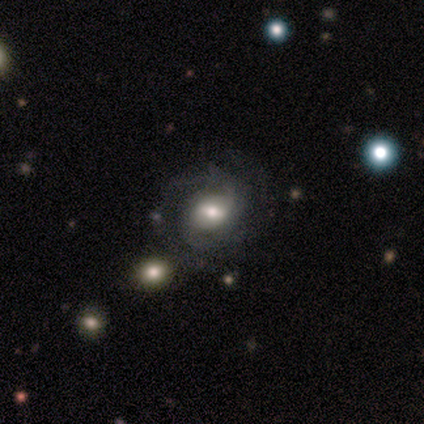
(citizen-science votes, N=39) Smooth or featured? featured or disk (79%)
Edge-on disk? no (94%)
Bar? weak (48%)
Spiral arms? yes (90%)
Spiral winding? tight (58%)
Spiral arm count? 2 (69%)
Bulge size? moderate (62%)
Merging? none (67%)